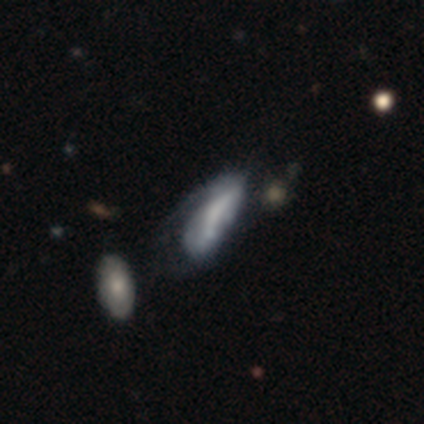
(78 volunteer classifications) Overall: featured or disk (59%; smooth 37%). Edge-on disk: no (93%). Bar: no (77%). Spiral arms: no (70%; yes 30%). Bulge size: none (70%). Merging: major disturbance (21%; merger 20%).